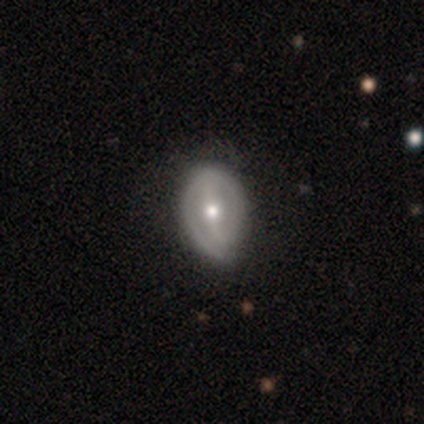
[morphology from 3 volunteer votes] Smooth or featured? 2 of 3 (67%) said featured or disk. Edge-on disk? 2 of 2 (100%) said no. Bar? 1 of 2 (50%, tied with weak) said strong. Spiral arms? 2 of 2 (100%) said yes. Spiral winding? 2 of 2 (100%) said tight. Spiral arm count? 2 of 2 (100%) said 2. Bulge size? 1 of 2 (50%, tied with small) said moderate. Merging? 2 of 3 (67%) said minor disturbance.